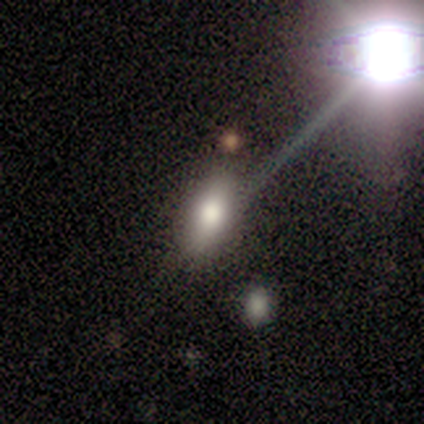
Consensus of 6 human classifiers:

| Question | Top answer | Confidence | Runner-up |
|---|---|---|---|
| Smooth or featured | smooth | 83% | star or artifact (17%) |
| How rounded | in between | 80% | round (20%) |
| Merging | none | 60% | minor disturbance (20%) |